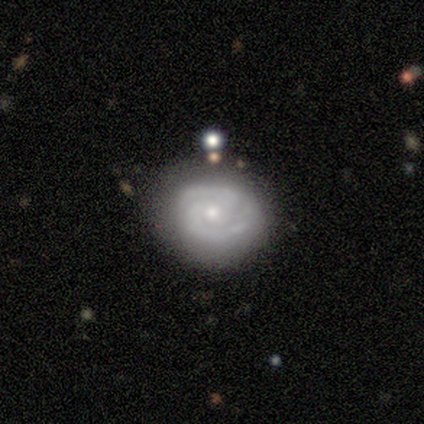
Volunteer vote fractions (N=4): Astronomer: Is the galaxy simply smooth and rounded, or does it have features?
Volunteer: smooth — 50%, tied with featured or disk at 50%.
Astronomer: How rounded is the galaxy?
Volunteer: round — 50%, tied with in between at 50%.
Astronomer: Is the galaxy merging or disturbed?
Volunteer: none — 75%.